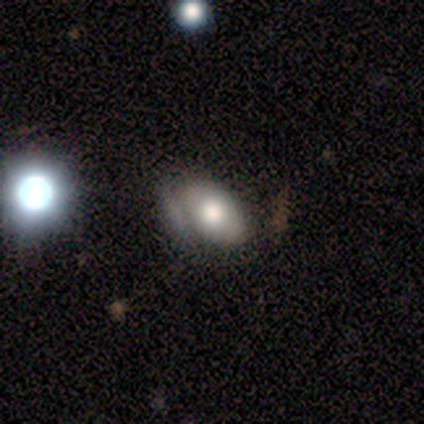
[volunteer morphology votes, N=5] Q: Smooth or featured?
A: smooth (80%); runner-up: featured or disk (20%)
Q: How rounded?
A: in between (100%)
Q: Merging?
A: none (80%); runner-up: merger (20%)